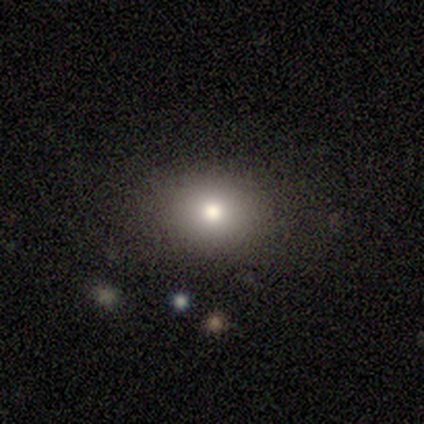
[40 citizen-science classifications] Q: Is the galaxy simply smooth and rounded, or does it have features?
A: smooth — 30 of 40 (75%).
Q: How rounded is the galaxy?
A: round — 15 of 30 (50%, tied with in between).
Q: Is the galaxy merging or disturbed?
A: none — 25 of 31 (81%).